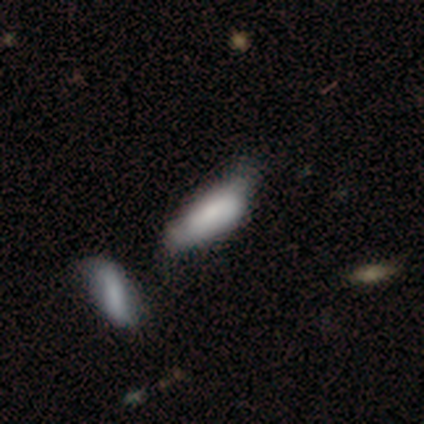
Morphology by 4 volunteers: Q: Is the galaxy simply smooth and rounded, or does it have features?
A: featured or disk — 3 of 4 (75%).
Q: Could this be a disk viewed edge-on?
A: no — 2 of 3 (67%).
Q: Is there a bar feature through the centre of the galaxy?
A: no — 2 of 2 (100%).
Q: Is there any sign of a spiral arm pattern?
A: yes — 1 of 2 (50%, tied with no).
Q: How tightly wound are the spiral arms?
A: tight — 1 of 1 (100%).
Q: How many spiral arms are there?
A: can't tell — 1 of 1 (100%).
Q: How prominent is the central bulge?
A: large — 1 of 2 (50%, tied with none).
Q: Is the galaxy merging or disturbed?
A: merger — 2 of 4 (50%).